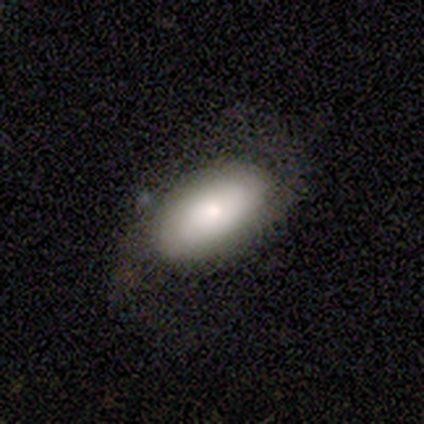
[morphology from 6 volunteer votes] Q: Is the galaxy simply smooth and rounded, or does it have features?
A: smooth — 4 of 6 (67%).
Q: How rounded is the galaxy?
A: in between — 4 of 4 (100%).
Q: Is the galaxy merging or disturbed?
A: none — 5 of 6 (83%).